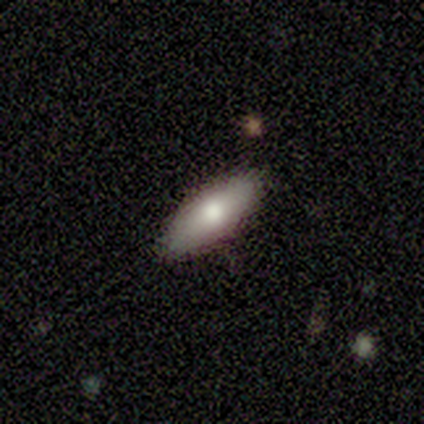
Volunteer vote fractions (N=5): Smooth or featured?
  - smooth: 100% *
  - featured or disk: 0%
  - star or artifact: 0%
How rounded?
  - in between: 80% *
  - cigar-shaped: 20%
  - round: 0%
Merging?
  - none: 100% *
  - minor disturbance: 0%
  - major disturbance: 0%
  - merger: 0%